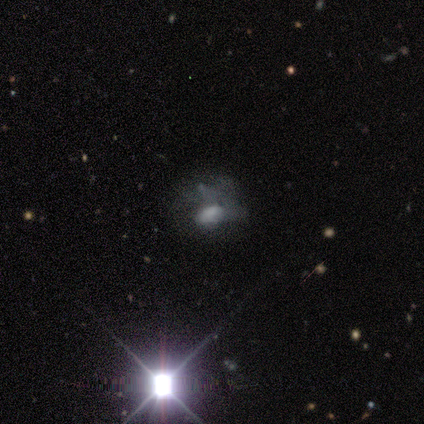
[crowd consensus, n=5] smooth_or_featured: featured or disk (p=0.60) [alt: star or artifact p=0.40]
disk_edge_on: no (p=1.00)
bar: no (p=1.00)
has_spiral_arms: no (p=1.00)
bulge_size: none (p=0.67) [alt: large p=0.33]
merging: none (p=0.33) [tied with: major disturbance p=0.33, merger p=0.33]